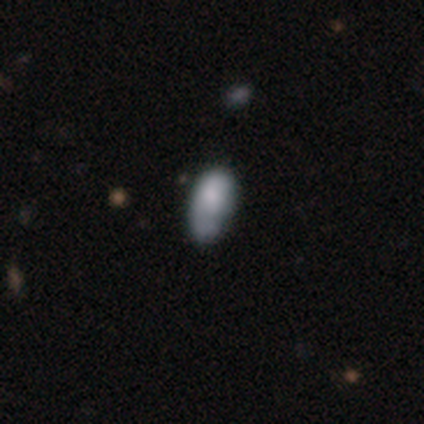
Smooth or featured?
  - smooth: 60% *
  - featured or disk: 40%
  - star or artifact: 0%
How rounded?
  - in between: 100% *
  - round: 0%
  - cigar-shaped: 0%
Merging?
  - minor disturbance: 60% *
  - none: 20%
  - major disturbance: 20%
  - merger: 0%